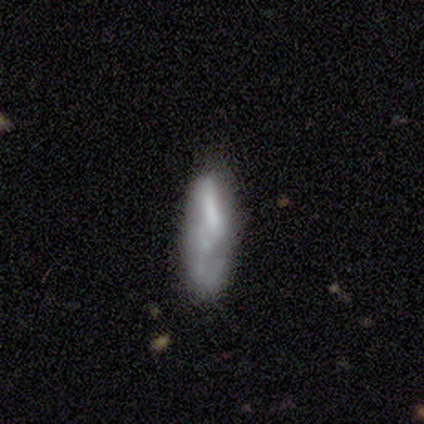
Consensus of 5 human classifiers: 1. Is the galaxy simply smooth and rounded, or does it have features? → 80% smooth, 20% featured or disk, 0% star or artifact.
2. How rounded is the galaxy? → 50% in between (tied), 50% cigar-shaped (tied), 0% round.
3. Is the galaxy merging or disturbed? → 60% major disturbance, 20% none, 20% minor disturbance, 0% merger.